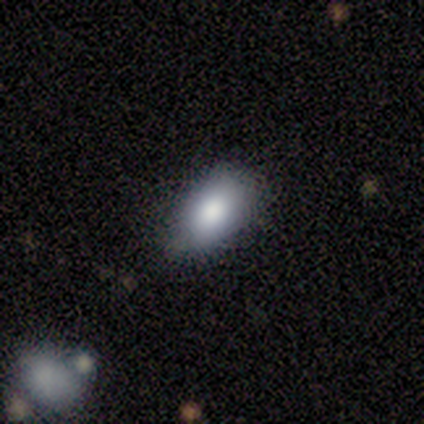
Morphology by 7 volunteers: Smooth or featured?
  - smooth: 100% *
  - featured or disk: 0%
  - star or artifact: 0%
How rounded?
  - in between: 100% *
  - round: 0%
  - cigar-shaped: 0%
Merging?
  - none: 57% *
  - minor disturbance: 43%
  - major disturbance: 0%
  - merger: 0%